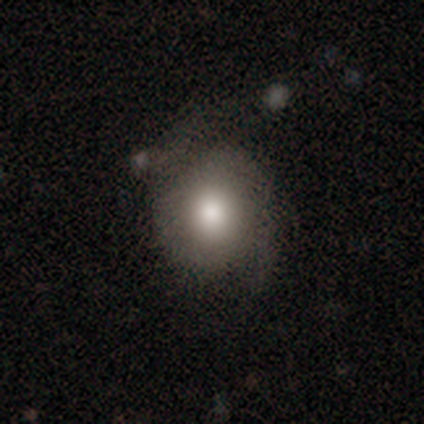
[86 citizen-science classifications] A smooth galaxy with no disk features (55%) that is round (83%).

Vote fractions:
- Smooth or featured? smooth: 55% / featured or disk: 33% / star or artifact: 13%
- How rounded? round: 83% / in between: 15% / cigar-shaped: 2%
- Merging? none: 72% / minor disturbance: 16% / major disturbance: 9% / merger: 3%